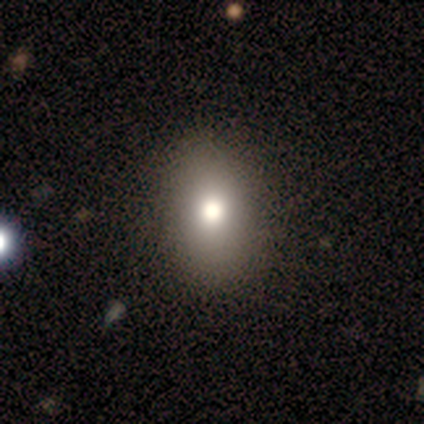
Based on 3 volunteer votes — Volunteers were most divided on "smooth or featured": star or artifact: 67%, smooth: 33%, featured or disk: 0%.